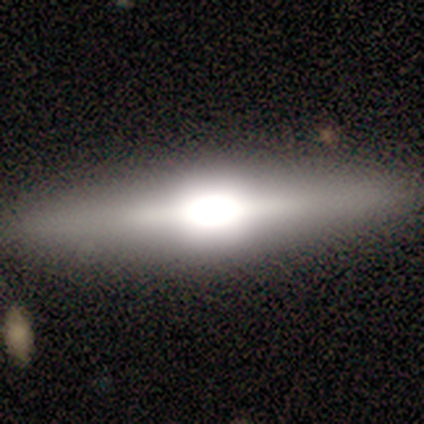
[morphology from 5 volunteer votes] Smooth or featured? featured or disk (100%)
Edge-on disk? yes (100%)
Edge-on bulge? rounded (60%)
Merging? none (100%)